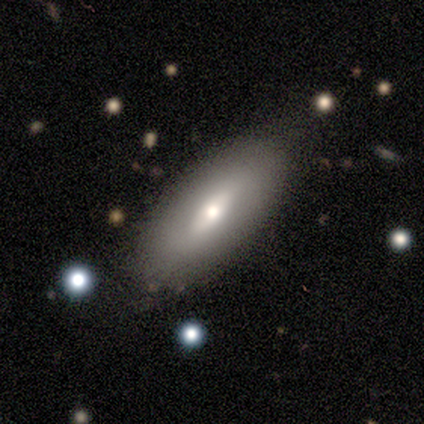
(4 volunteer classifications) A smooth galaxy with no disk features (75%) that is in between round and cigar-shaped (100%). Merging: none (100%).